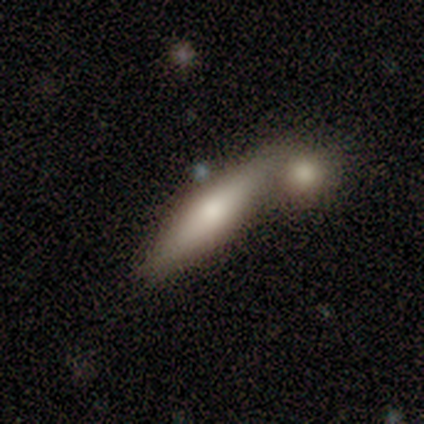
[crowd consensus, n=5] smooth_or_featured: smooth (p=0.80) [alt: featured or disk p=0.20]
how_rounded: cigar-shaped (p=0.75) [alt: in between p=0.25]
merging: merger (p=0.60) [alt: none p=0.40]